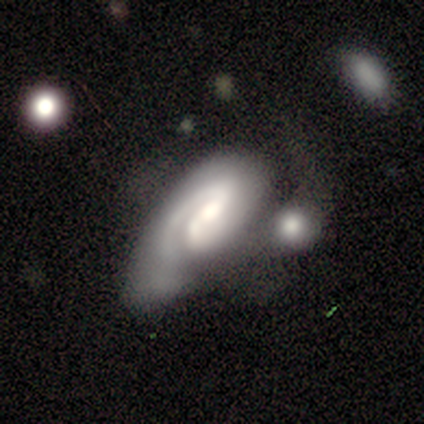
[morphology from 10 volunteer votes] A featured or disk galaxy (90%) with a weak bar (62%), 1 (100%) medium (57%) spiral arms (88%) and a large central bulge (38%).

Vote fractions:
- Smooth or featured? featured or disk: 90% / smooth: 10% / star or artifact: 0%
- Edge-on disk? no: 89% / yes: 11%
- Bar? weak: 62% / no: 25% / strong: 12%
- Spiral arms? yes: 88% / no: 12%
- Spiral winding? medium: 57% / tight: 29% / loose: 14%
- Spiral arm count? 1: 100% / 2: 0% / 3: 0% / 4: 0% / more than 4: 0% / can't tell: 0%
- Bulge size? large: 38% / small: 25% / none: 25% / moderate: 12% / dominant: 0%
- Merging? merger: 60% / none: 20% / minor disturbance: 10% / major disturbance: 10%